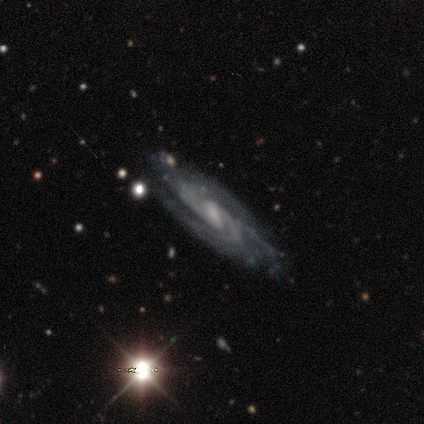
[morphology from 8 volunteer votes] featured or disk 88%, smooth 12%, star or artifact 0%. Down the decision tree: edge-on disk — no (71%); bar — weak (80%); spiral arms — yes (100%); spiral arm count — 2 (60%); spiral winding — tight (40%, tied with medium); bulge size — small (80%); merging — none (75%).